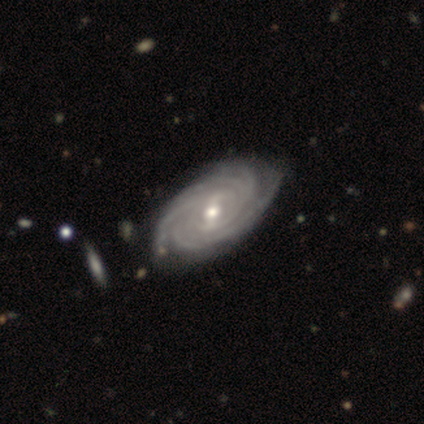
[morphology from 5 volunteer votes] Smooth or featured: featured or disk — 100%
Edge-on disk: no — 100%
Bar: weak — 80% (no — 20%)
Spiral arms: yes — 80% (no — 20%)
Spiral winding: tight — 100%
Spiral arm count: 2 — 25% (tied with 3 — 25%; more than 4 — 25%; can't tell — 25%)
Bulge size: moderate — 100%
Merging: none — 60% (minor disturbance — 20%)